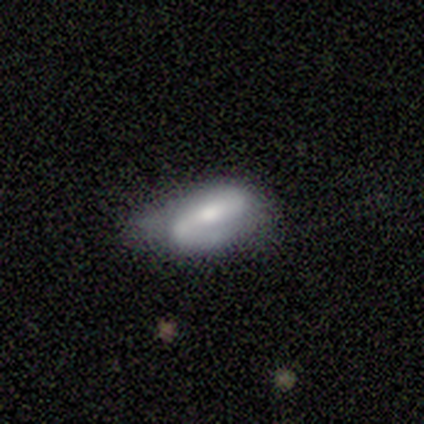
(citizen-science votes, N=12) featured or disk 58%, smooth 33%, star or artifact 8%. Down the decision tree: edge-on disk — no (100%); bar — strong (57%); spiral arms — yes (100%); spiral arm count — 2 (86%); spiral winding — medium (43%); bulge size — moderate (43%, tied with small); merging — minor disturbance (73%).